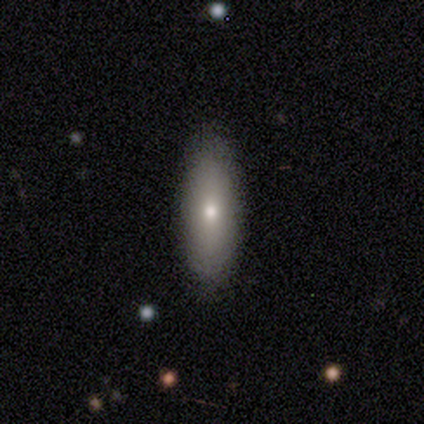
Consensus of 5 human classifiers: Smooth or featured: smooth — 60% (featured or disk — 40%)
How rounded: cigar-shaped — 100%
Merging: none — 100%